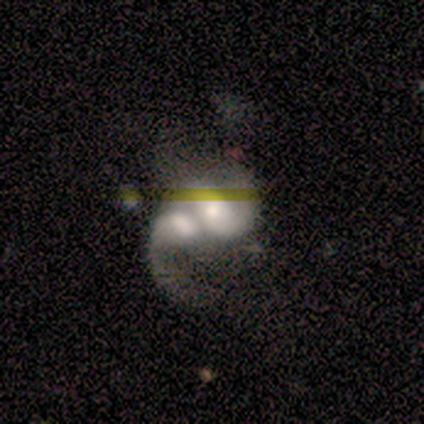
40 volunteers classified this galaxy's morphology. Smooth or featured: featured or disk — 70% (star or artifact — 18%)
Edge-on disk: no — 100%
Bar: no — 54% (weak — 39%)
Spiral arms: yes — 86% (no — 14%)
Spiral winding: medium — 46% (tied with loose — 46%)
Spiral arm count: 2 — 58% (can't tell — 29%)
Bulge size: moderate — 61% (large — 29%)
Merging: merger — 85% (minor disturbance — 9%)